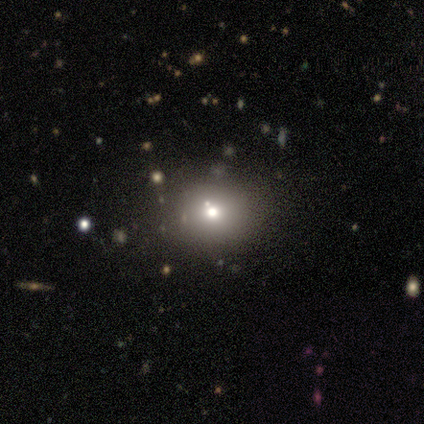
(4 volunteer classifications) This appears to be a smooth galaxy with no disk features (75%) that is round (67%). Merging: none (100%).